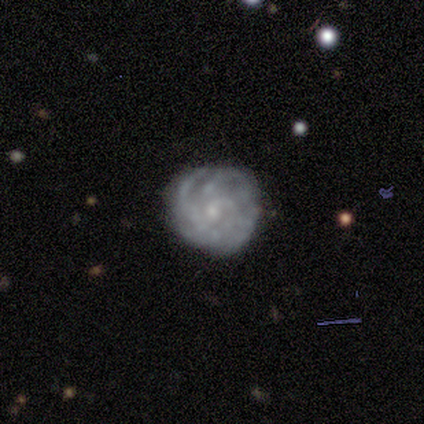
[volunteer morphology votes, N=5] This is clearly a featured or disk galaxy (80%). It is likely not viewed edge-on (75%). Bar: likely no (67%). Spiral arm pattern: clearly yes (100%). Spiral arm count: likely can't tell (67%). Spiral winding: likely tight (67%). Central bulge: likely moderate (67%). Merging: likely none (60%).